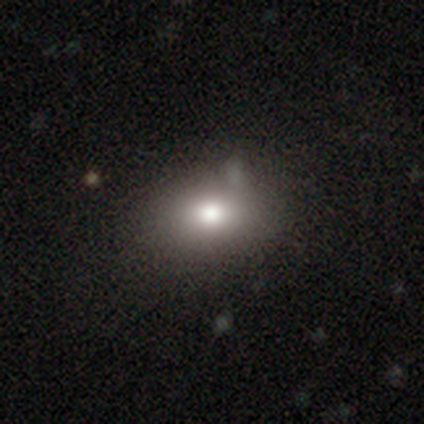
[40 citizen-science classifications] This appears to be a smooth galaxy with no disk features (85%) that is in between round and cigar-shaped (82%). Merging: none (55%).